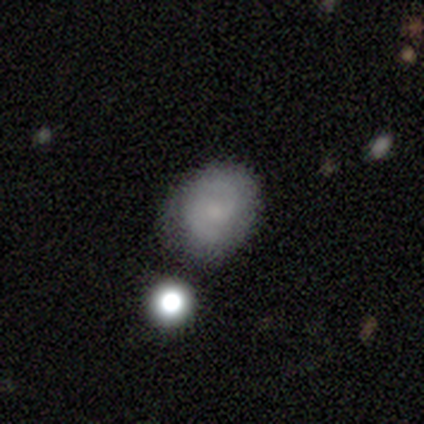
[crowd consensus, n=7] This appears to be a featured or disk galaxy (57%) with a weak bar (75%), 2 (100%) medium (100%) spiral arms (100%) and a small central bulge (50%). Merging: none (83%).